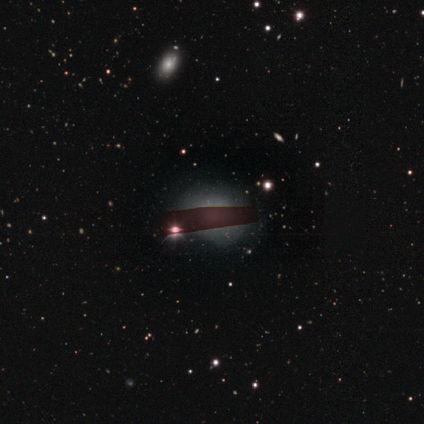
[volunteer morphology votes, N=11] This appears to be a smooth galaxy with no disk features (55%) that is round (50%, tied with in between). Merging: none (50%).